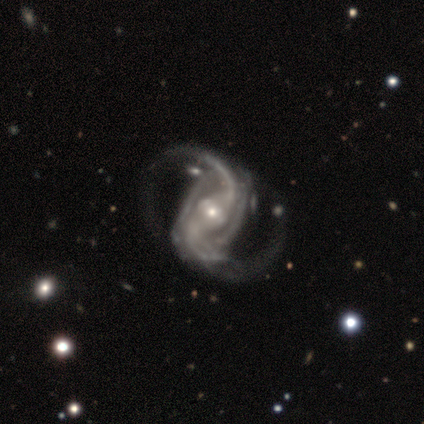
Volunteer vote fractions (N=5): Smooth or featured? featured or disk (80%)
Edge-on disk? no (100%)
Bar? strong (75%)
Spiral arms? yes (100%)
Spiral winding? medium (50%, tied with loose)
Spiral arm count? 2 (100%)
Bulge size? small (75%)
Merging? none (60%)